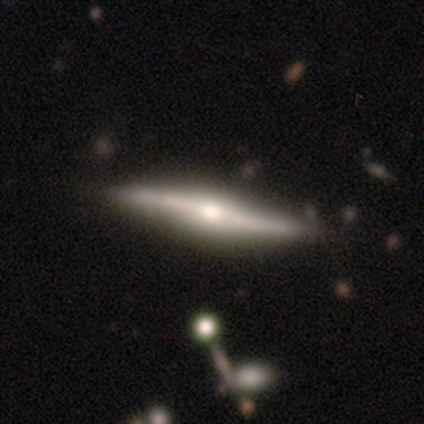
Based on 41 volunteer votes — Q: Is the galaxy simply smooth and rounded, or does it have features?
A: featured or disk — 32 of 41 (78%).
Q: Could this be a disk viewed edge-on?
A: yes — 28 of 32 (88%).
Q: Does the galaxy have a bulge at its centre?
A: rounded — 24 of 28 (86%).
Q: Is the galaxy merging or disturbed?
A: none — 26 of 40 (65%).